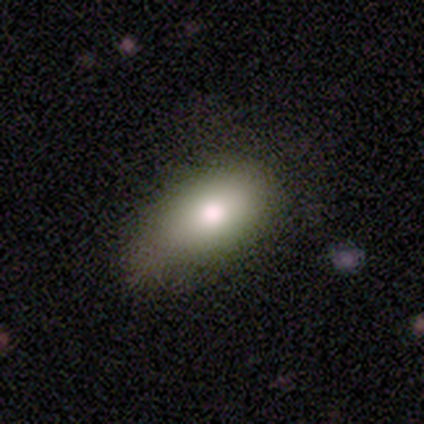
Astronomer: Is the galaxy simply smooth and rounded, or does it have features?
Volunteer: smooth — 100%.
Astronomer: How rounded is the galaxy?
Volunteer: in between — 75%.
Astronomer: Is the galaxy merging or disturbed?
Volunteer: none — 50%, tied with minor disturbance at 50%.